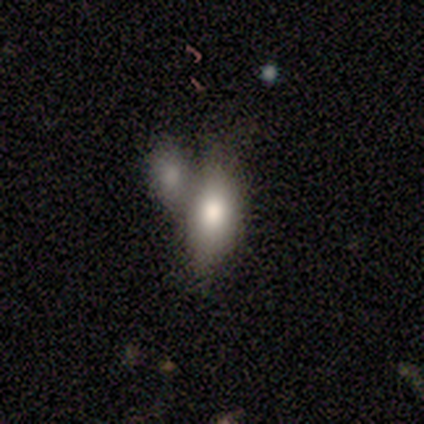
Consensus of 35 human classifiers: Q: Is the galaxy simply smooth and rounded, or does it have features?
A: smooth — 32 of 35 (91%).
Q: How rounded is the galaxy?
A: in between — 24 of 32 (75%).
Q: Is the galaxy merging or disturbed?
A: merger — 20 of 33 (61%).